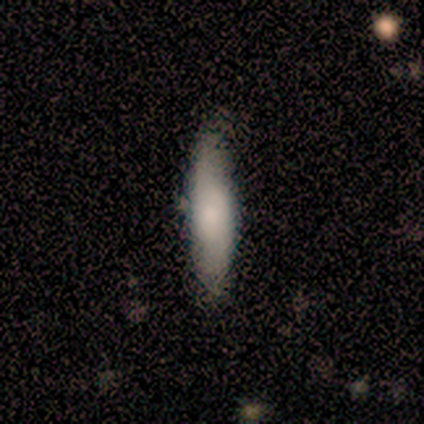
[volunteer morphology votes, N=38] A smooth galaxy with no disk features (71%) that is cigar-shaped (81%).

Vote fractions:
- Smooth or featured? smooth: 71% / featured or disk: 24% / star or artifact: 5%
- How rounded? cigar-shaped: 81% / in between: 19% / round: 0%
- Merging? none: 83% / minor disturbance: 14% / major disturbance: 3% / merger: 0%